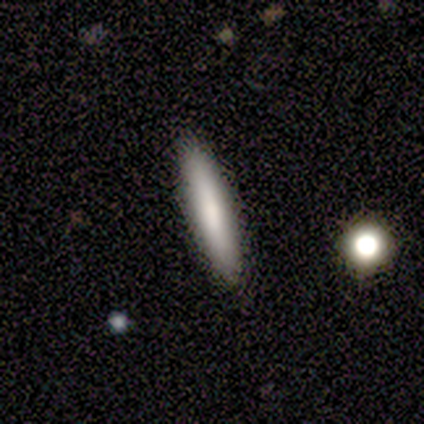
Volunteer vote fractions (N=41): This appears to be a smooth galaxy with no disk features (76%) that is cigar-shaped (94%). Merging: none (92%).